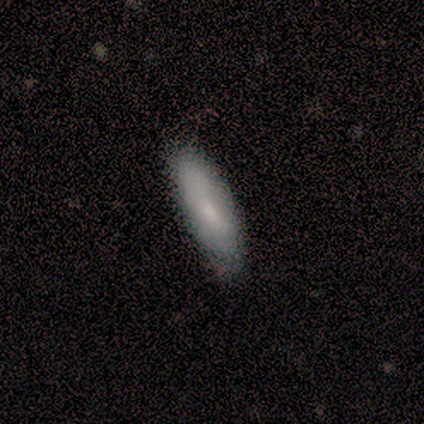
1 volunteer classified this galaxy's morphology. type=featured or disk (100%); edge-on=no (100%); bar=no (100%); spiral arms=no (100%); bulge=small (100%); merging=minor disturbance (100%).